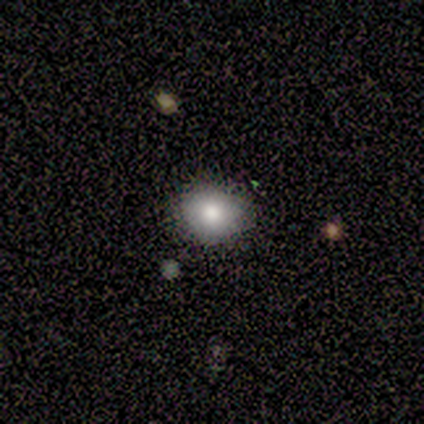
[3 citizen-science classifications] smooth_or_featured: smooth (p=0.67) [alt: featured or disk p=0.33]
how_rounded: round (p=0.50) [tied with: in between p=0.50]
merging: none (p=1.00)